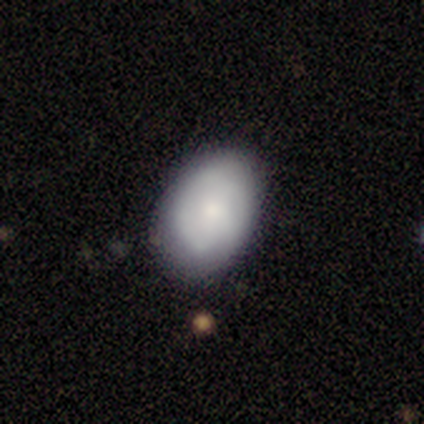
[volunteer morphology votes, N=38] type=smooth (66%); roundness=in between (80%); merging=none (76%).